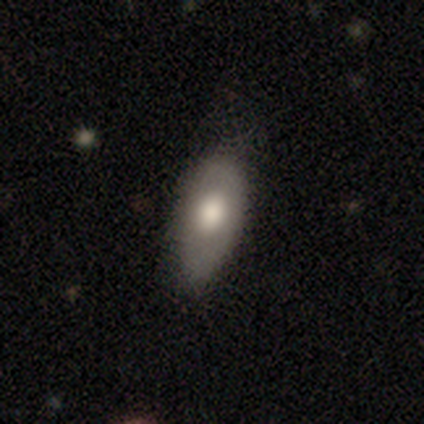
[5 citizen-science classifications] Smooth or featured?
  - smooth: 100% *
  - featured or disk: 0%
  - star or artifact: 0%
How rounded?
  - in between: 80% *
  - cigar-shaped: 20%
  - round: 0%
Merging?
  - none: 60% *
  - minor disturbance: 40%
  - major disturbance: 0%
  - merger: 0%